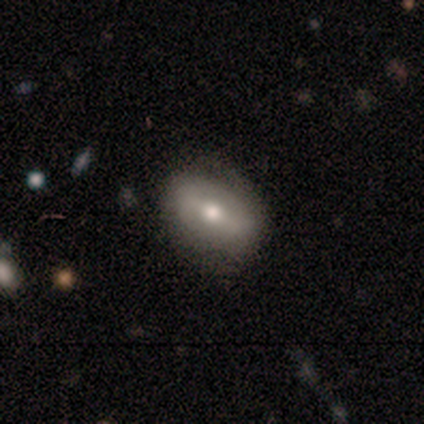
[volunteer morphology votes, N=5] Smooth or featured? 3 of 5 (60%) said smooth. How rounded? 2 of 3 (67%) said in between. Merging? 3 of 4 (75%) said none.